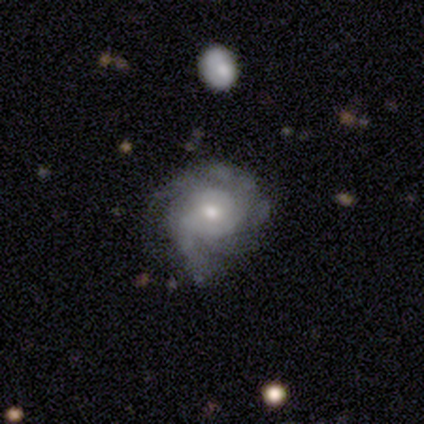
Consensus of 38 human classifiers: A featured or disk galaxy (71%) with no bar (73%), tight (48%) spiral arms (88%) and a moderate central bulge (46%).

Vote fractions:
- Smooth or featured? featured or disk: 71% / smooth: 18% / star or artifact: 11%
- Edge-on disk? no: 96% / yes: 4%
- Bar? no: 73% / weak: 23% / strong: 4%
- Spiral arms? yes: 88% / no: 12%
- Spiral winding? tight: 48% / medium: 43% / loose: 9%
- Spiral arm count? can't tell: 43% / 2: 35% / more than 4: 9% / 1: 4% / 3: 4% / 4: 4%
- Bulge size? moderate: 46% / small: 42% / dominant: 8% / large: 4% / none: 0%
- Merging? none: 56% / minor disturbance: 26% / major disturbance: 15% / merger: 3%